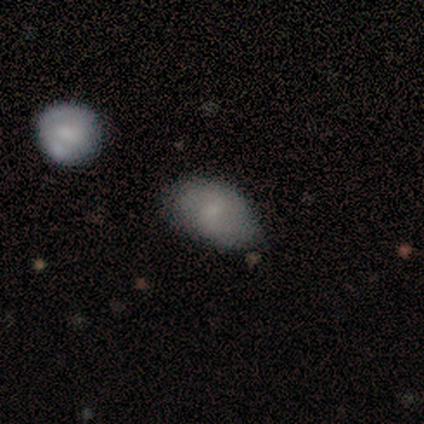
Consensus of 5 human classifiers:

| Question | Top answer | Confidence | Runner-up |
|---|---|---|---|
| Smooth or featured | smooth | 100% | — |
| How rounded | in between | 100% | — |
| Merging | none | 60% | minor disturbance (20%) |